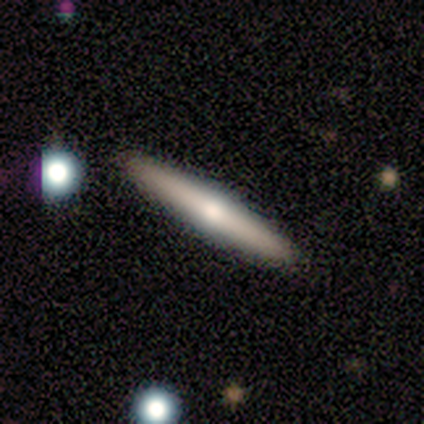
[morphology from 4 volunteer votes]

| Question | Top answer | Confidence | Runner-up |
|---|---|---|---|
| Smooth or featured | smooth | 50% | featured or disk (25%) |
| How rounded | cigar-shaped | 100% | — |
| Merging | none | 100% | — |